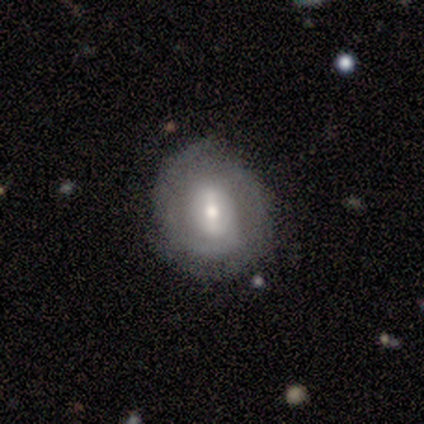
A featured or disk galaxy (60%) with no bar (67%), 2 (67%) medium (67%) spiral arms (100%) and a moderate central bulge (67%). Merging: none (100%).